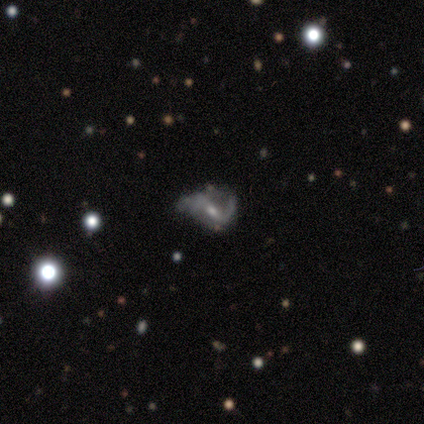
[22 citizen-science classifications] Volunteers were most divided on "bar" (2-way tie): strong: 35%, no: 35%, weak: 29%. Remaining: edge-on disk — no (100%); smooth or featured — featured or disk (77%); spiral arms — yes (76%); spiral winding — loose (54%); bulge size — moderate (53%); spiral arm count — 2 (46%); merging — none (40%).